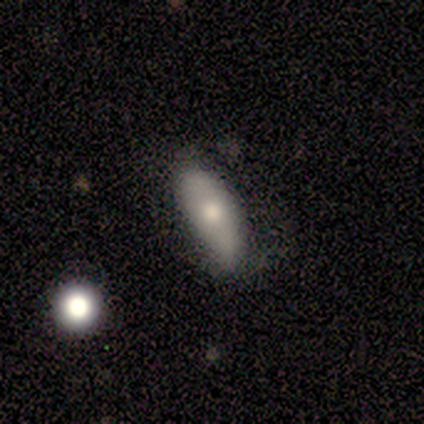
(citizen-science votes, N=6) Overall: smooth (100%). How rounded: in between (67%; cigar-shaped 33%). Merging: none (67%; minor disturbance 33%).